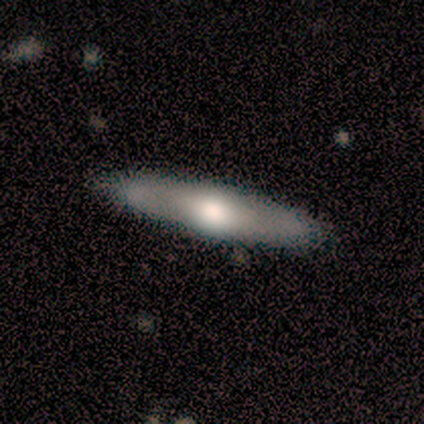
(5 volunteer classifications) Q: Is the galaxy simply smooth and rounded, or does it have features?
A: smooth — 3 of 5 (60%).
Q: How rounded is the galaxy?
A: in between — 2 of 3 (67%).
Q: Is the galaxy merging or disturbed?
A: none — 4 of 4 (100%).